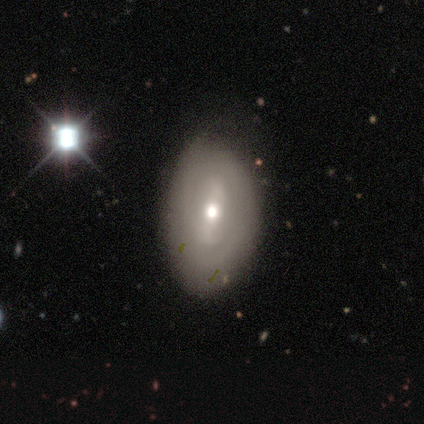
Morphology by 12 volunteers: Q: Smooth or featured?
A: featured or disk (58%); runner-up: smooth (25%)
Q: Edge-on disk?
A: no (100%)
Q: Bar?
A: strong (57%); runner-up: no (29%)
Q: Spiral arms?
A: yes (71%); runner-up: no (29%)
Q: Spiral winding?
A: tight (40%); tied with: loose (40%)
Q: Spiral arm count?
A: 2 (80%); runner-up: can't tell (20%)
Q: Bulge size?
A: moderate (43%); runner-up: large (29%)
Q: Merging?
A: none (80%); runner-up: minor disturbance (20%)